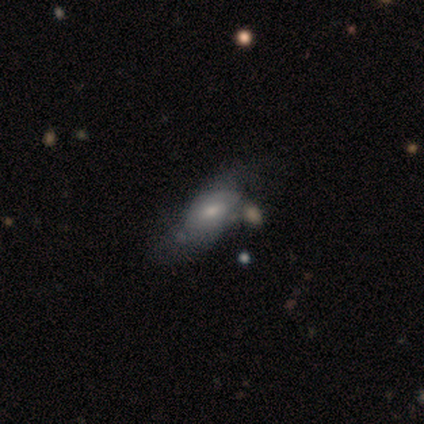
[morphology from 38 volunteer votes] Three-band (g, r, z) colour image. It shows a smooth galaxy with no disk features (55%) that is in between round and cigar-shaped (86%). Merging: none (37%).